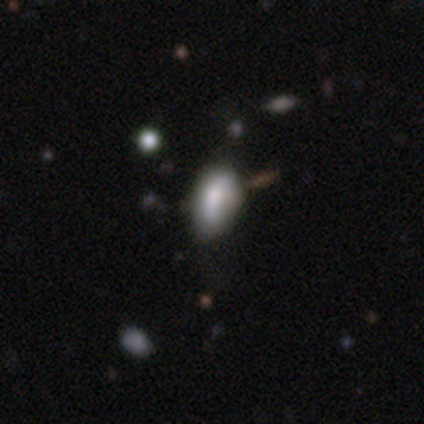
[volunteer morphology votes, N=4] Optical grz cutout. It shows a smooth galaxy with no disk features (50%) that is in between round and cigar-shaped (100%). Merging: none (67%).